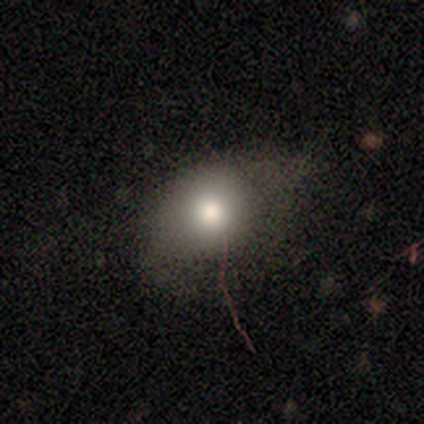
A smooth galaxy with no disk features (79%) that is in between round and cigar-shaped (52%). Merging: none (46%).